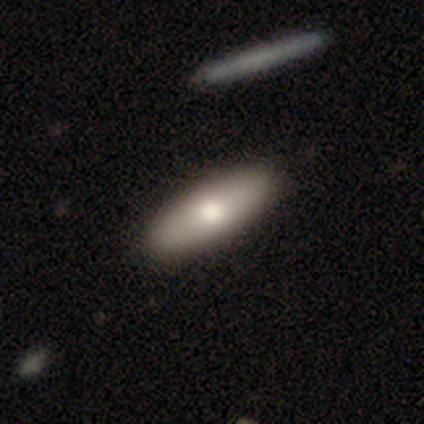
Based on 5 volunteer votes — Smooth or featured? 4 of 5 (80%) said smooth. How rounded? 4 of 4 (100%) said in between. Merging? 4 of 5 (80%) said none.